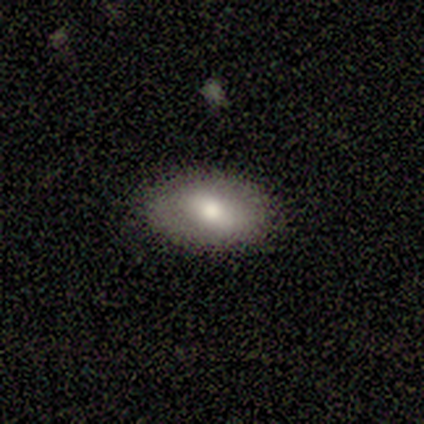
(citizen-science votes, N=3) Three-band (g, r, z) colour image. It shows a smooth galaxy with no disk features (67%) that is round (50%, tied with in between). Merging: none (100%).